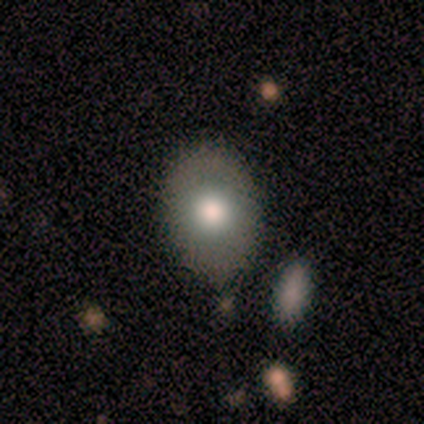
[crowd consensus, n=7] A smooth galaxy with no disk features (71%) that is in between round and cigar-shaped (80%). Merging: none (83%).